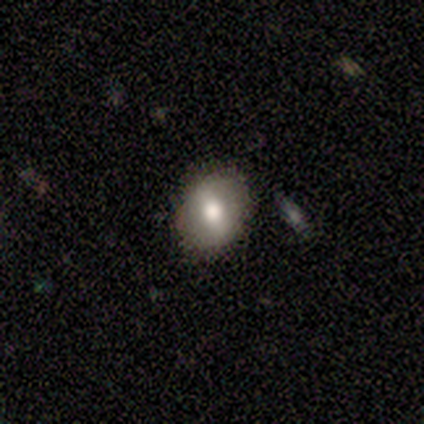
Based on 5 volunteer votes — smooth-or-featured: smooth: 60% | featured or disk: 40% | star or artifact: 0%
  how-rounded: round: 67% | in between: 33% | cigar-shaped: 0%
  merging: none: 80% | minor disturbance: 20% | major disturbance: 0% | merger: 0%